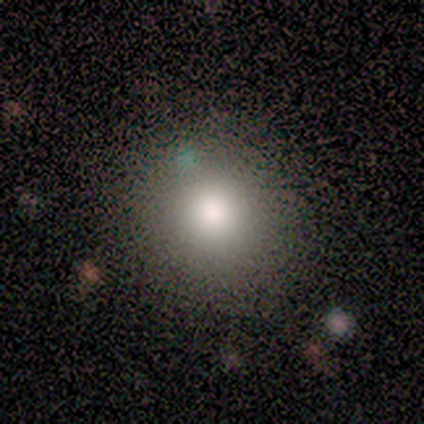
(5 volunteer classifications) smooth_or_featured: smooth (p=0.80) [alt: featured or disk p=0.20]
how_rounded: round (p=1.00)
merging: none (p=0.80) [alt: major disturbance p=0.20]